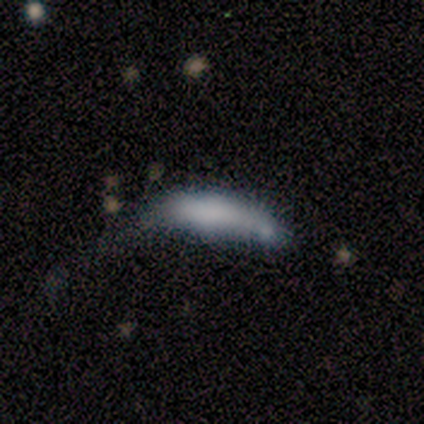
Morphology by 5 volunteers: Overall: smooth (60%; featured or disk 40%). How rounded: cigar-shaped (100%). Merging: merger (40%; none 20%).